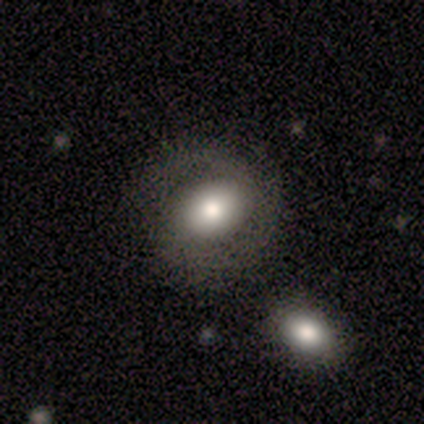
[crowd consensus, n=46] A featured or disk galaxy (54%) with no bar (38%), 2 (95%) tight (45%) spiral arms (83%) and a moderate central bulge (50%).

Vote fractions:
- Smooth or featured? featured or disk: 54% / smooth: 37% / star or artifact: 9%
- Edge-on disk? no: 96% / yes: 4%
- Bar? no: 38% / strong: 33% / weak: 29%
- Spiral arms? yes: 83% / no: 17%
- Spiral winding? tight: 45% / medium: 35% / loose: 20%
- Spiral arm count? 2: 95% / 1: 5% / 3: 0% / 4: 0% / more than 4: 0% / can't tell: 0%
- Bulge size? moderate: 50% / large: 42% / small: 4% / none: 4% / dominant: 0%
- Merging? none: 76% / minor disturbance: 12% / major disturbance: 10% / merger: 2%